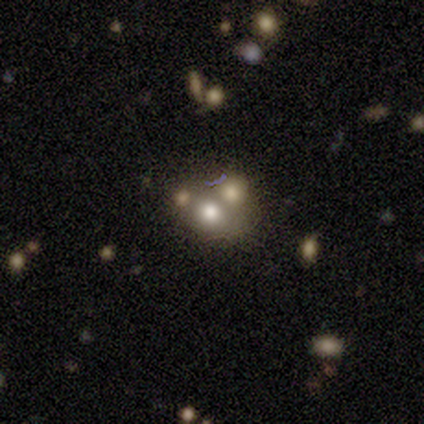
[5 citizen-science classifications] A star or artifact, not a galaxy (60%).